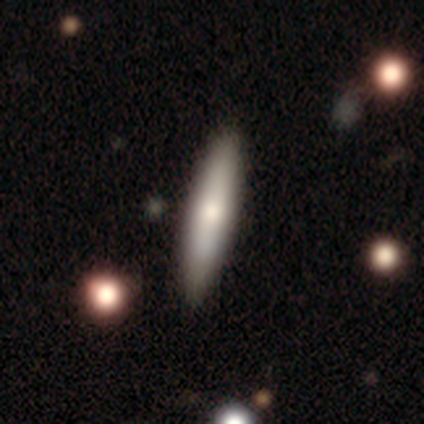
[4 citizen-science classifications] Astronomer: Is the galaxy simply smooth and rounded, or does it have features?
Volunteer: smooth — 75%.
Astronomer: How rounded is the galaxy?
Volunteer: cigar-shaped — 100%.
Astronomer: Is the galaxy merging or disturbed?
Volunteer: none — 100%.